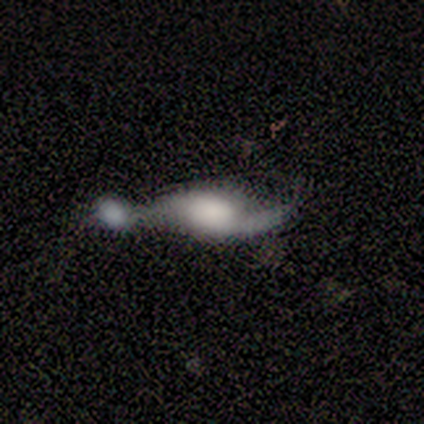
Q: Smooth or featured?
A: featured or disk (100%)
Q: Edge-on disk?
A: no (57%); runner-up: yes (43%)
Q: Bar?
A: no (75%); runner-up: weak (25%)
Q: Spiral arms?
A: yes (100%)
Q: Spiral winding?
A: loose (75%); runner-up: tight (25%)
Q: Spiral arm count?
A: 2 (75%); runner-up: 1 (25%)
Q: Bulge size?
A: none (50%); runner-up: dominant (25%)
Q: Merging?
A: merger (43%); runner-up: none (29%)